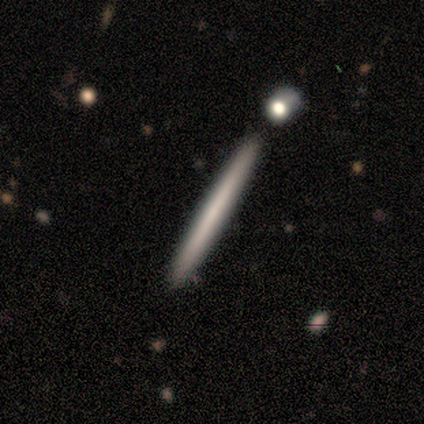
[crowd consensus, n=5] smooth_or_featured: featured or disk (p=0.60) [alt: smooth p=0.40]
disk_edge_on: yes (p=1.00)
edge_on_bulge: none (p=1.00)
merging: none (p=1.00)